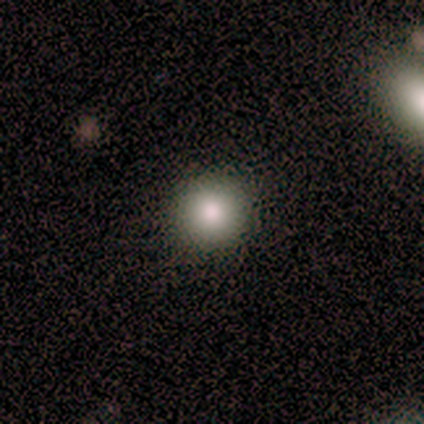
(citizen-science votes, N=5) Smooth or featured?
  - smooth: 80% *
  - featured or disk: 20%
  - star or artifact: 0%
How rounded?
  - round: 100% *
  - in between: 0%
  - cigar-shaped: 0%
Merging?
  - none: 100% *
  - minor disturbance: 0%
  - major disturbance: 0%
  - merger: 0%